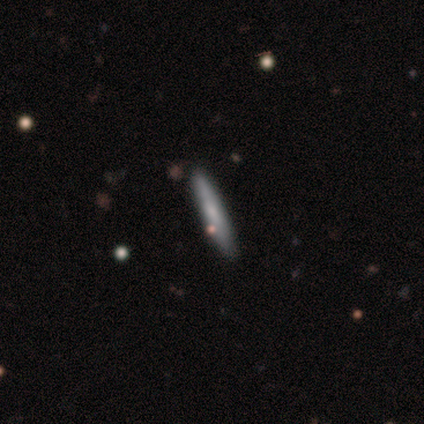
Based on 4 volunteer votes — Smooth or featured: smooth — 75% (star or artifact — 25%)
How rounded: cigar-shaped — 100%
Merging: none — 67% (minor disturbance — 33%)